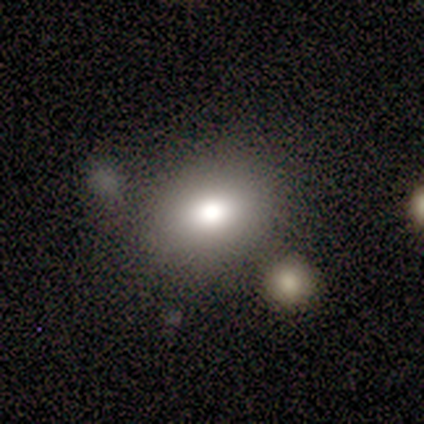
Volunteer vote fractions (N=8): smooth 62%, star or artifact 38%, featured or disk 0%. Down the decision tree: how rounded — round (60%); merging — none (60%).